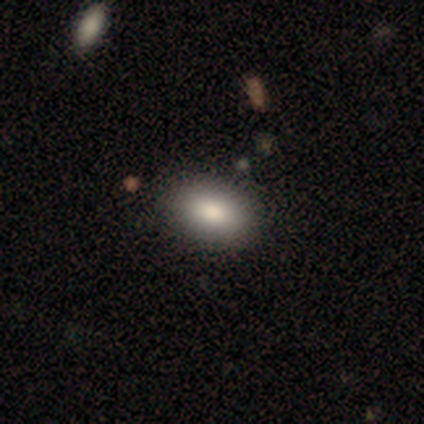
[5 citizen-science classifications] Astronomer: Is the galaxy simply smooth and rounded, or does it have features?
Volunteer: smooth — 100%.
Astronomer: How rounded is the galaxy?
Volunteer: in between — 60% (runner-up: round, 40%).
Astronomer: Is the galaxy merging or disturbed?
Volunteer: none — 80%.